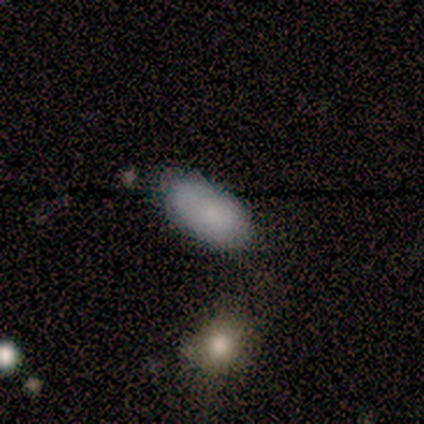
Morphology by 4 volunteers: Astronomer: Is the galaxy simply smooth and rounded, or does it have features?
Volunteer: smooth — 75%.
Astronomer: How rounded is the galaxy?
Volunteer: in between — 100%.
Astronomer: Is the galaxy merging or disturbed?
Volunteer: minor disturbance — 67%.